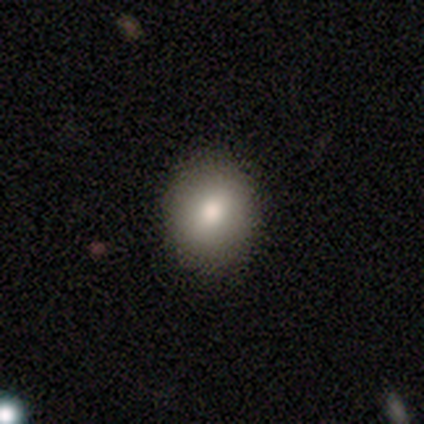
Smooth or featured: smooth — 84% (star or artifact — 11%)
How rounded: round — 81% (in between — 19%)
Merging: none — 94% (minor disturbance — 3%)